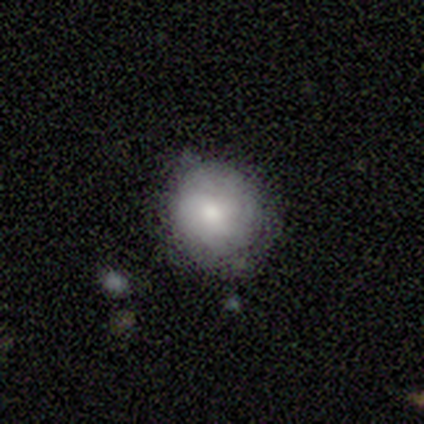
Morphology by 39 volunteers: Smooth or featured? 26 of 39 (67%) said smooth. How rounded? 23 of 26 (88%) said round. Merging? 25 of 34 (74%) said none.